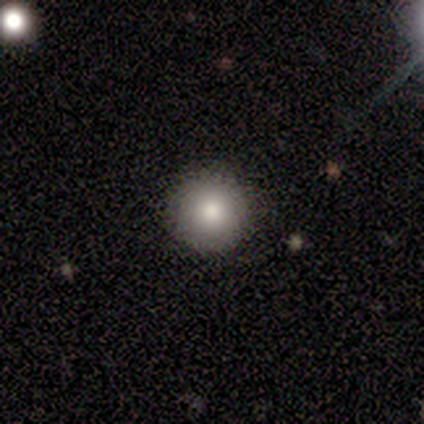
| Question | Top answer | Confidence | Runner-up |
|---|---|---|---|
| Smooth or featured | smooth | 100% | — |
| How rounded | round | 80% | cigar-shaped (20%) |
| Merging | none | 80% | minor disturbance (20%) |